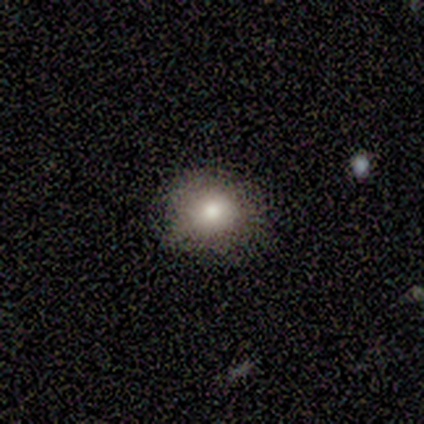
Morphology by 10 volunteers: A smooth galaxy with no disk features (90%) that is round (67%). Merging: none (80%).